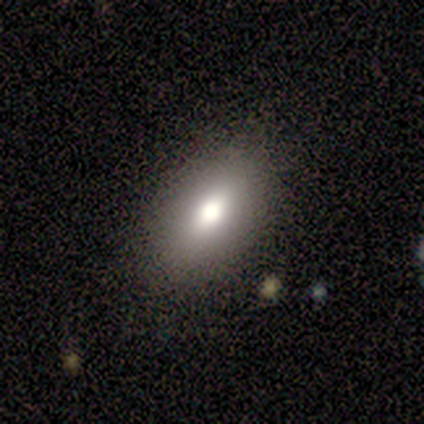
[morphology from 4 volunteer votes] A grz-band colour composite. It shows a smooth galaxy with no disk features (75%) that is in between round and cigar-shaped (100%). Merging: none (100%).